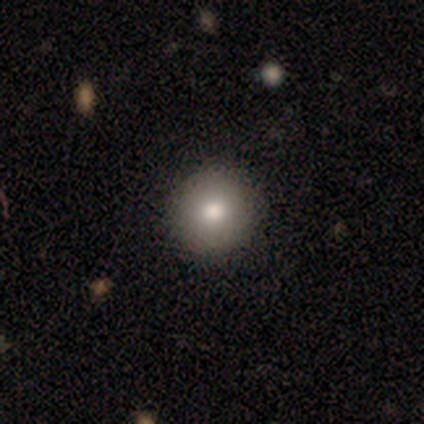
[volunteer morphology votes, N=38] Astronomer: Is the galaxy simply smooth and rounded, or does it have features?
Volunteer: smooth — 84%.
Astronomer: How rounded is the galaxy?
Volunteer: round — 100%.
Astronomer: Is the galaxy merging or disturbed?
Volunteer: none — 59%.